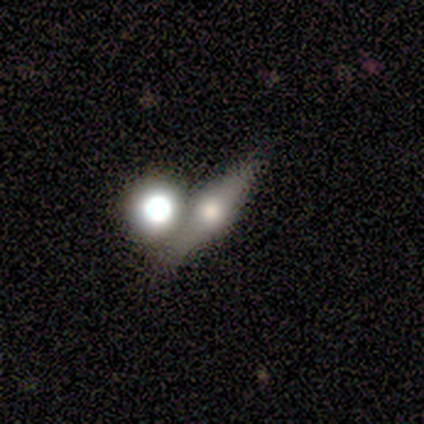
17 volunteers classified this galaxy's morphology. Smooth or featured: featured or disk — 82% (smooth — 18%)
Edge-on disk: yes — 86% (no — 14%)
Edge-on bulge: rounded — 83% (boxy — 8%)
Merging: none — 65% (merger — 29%)